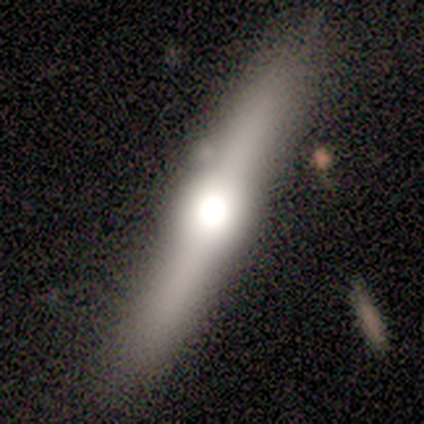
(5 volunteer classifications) A featured or disk galaxy (60%) viewed edge-on (100%) with a rounded central bulge (100%).

Vote fractions:
- Smooth or featured? featured or disk: 60% / smooth: 40% / star or artifact: 0%
- Edge-on disk? yes: 100% / no: 0%
- Edge-on bulge? rounded: 100% / boxy: 0% / none: 0%
- Merging? none: 80% / minor disturbance: 20% / major disturbance: 0% / merger: 0%